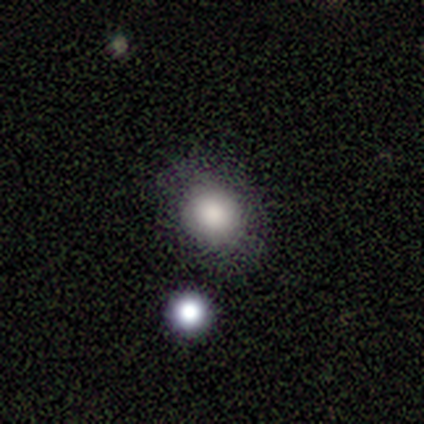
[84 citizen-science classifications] Overall: smooth (71%). How rounded: round (62%; in between 38%). Merging: none (75%).